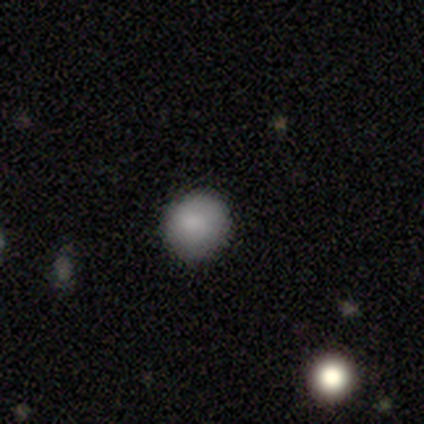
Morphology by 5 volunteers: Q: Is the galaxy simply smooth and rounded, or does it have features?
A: smooth — 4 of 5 (80%).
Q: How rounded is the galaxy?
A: round — 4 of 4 (100%).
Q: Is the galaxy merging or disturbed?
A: none — 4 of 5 (80%).